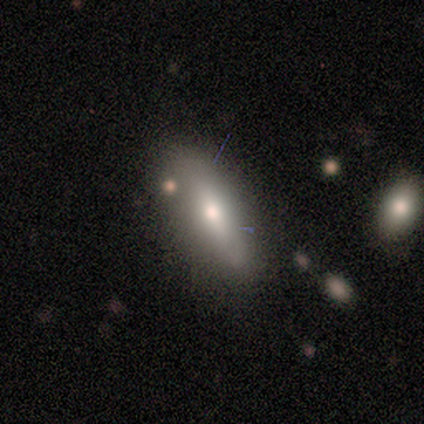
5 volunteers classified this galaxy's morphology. This is clearly a smooth galaxy (100%). How rounded: likely cigar-shaped (60%). Merging: likely none (60%).